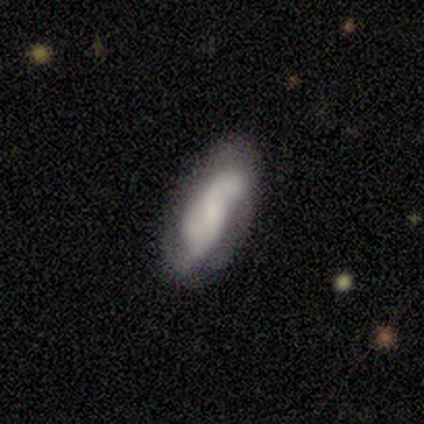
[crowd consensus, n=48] Overall: featured or disk (77%). Edge-on disk: no (95%). Bar: no (46%; weak 43%). Spiral arms: yes (80%). Spiral arm count: 2 (50%; 3 32%). Spiral winding: loose (50%; medium 32%). Bulge size: small (66%). Merging: none (56%; minor disturbance 22%).